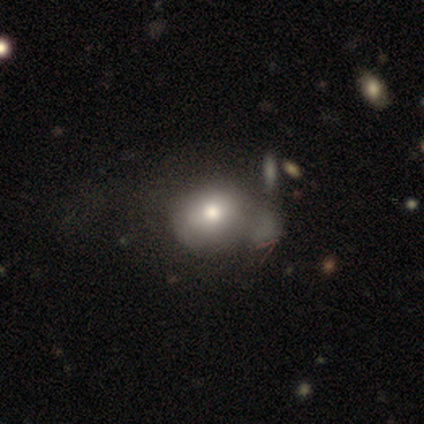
smooth-or-featured: smooth: 82% | featured or disk: 18% | star or artifact: 0%
  how-rounded: in between: 55% | round: 42% | cigar-shaped: 3%
  merging: merger: 30% | none: 18% | major disturbance: 12% | minor disturbance: 10%